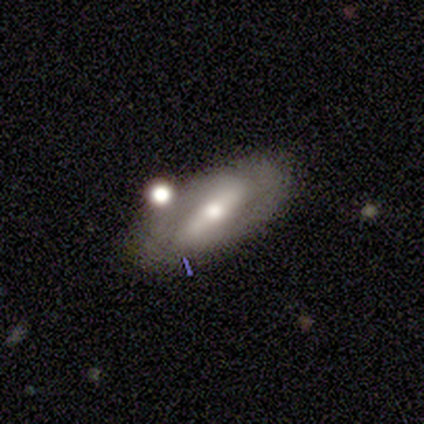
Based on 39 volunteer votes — This is likely a featured or disk galaxy (67%). It is clearly not viewed edge-on (96%). Bar: likely strong (60%). Spiral arm pattern: possibly no (52%). Central bulge: likely moderate (76%). Merging: likely none (74%).